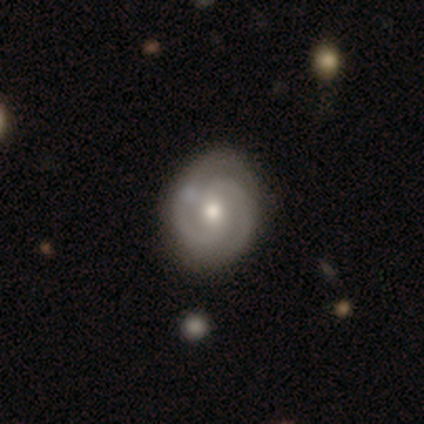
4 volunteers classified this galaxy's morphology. Smooth or featured?
  - featured or disk: 100% *
  - smooth: 0%
  - star or artifact: 0%
Edge-on disk?
  - no: 100% *
  - yes: 0%
Bar?
  - weak: 50% * (tied)
  - no: 50% * (tied)
  - strong: 0%
Spiral arms?
  - yes: 100% *
  - no: 0%
Spiral winding?
  - tight: 50% * (tied)
  - medium: 50% * (tied)
  - loose: 0%
Spiral arm count?
  - 2: 100% *
  - 1: 0%
  - 3: 0%
  - 4: 0%
  - more than 4: 0%
  - can't tell: 0%
Bulge size?
  - moderate: 100% *
  - dominant: 0%
  - large: 0%
  - small: 0%
  - none: 0%
Merging?
  - minor disturbance: 50% *
  - none: 25%
  - merger: 25%
  - major disturbance: 0%